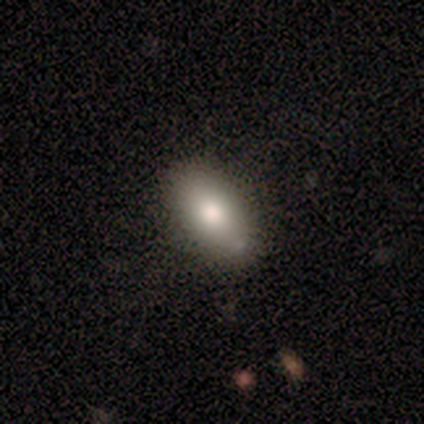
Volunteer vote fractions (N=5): A smooth galaxy with no disk features (80%) that is in between round and cigar-shaped (100%). Merging: none (80%).